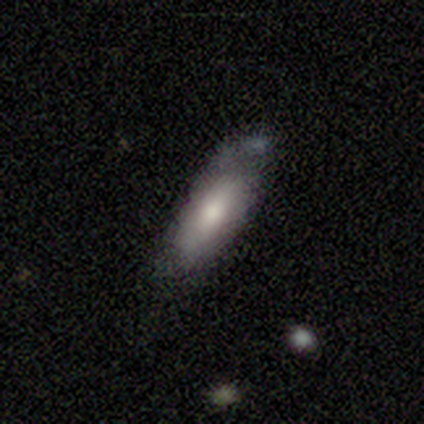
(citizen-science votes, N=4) Smooth or featured?
  - smooth: 100% *
  - featured or disk: 0%
  - star or artifact: 0%
How rounded?
  - in between: 50% * (tied)
  - cigar-shaped: 50% * (tied)
  - round: 0%
Merging?
  - none: 50% * (tied)
  - minor disturbance: 50% * (tied)
  - major disturbance: 0%
  - merger: 0%